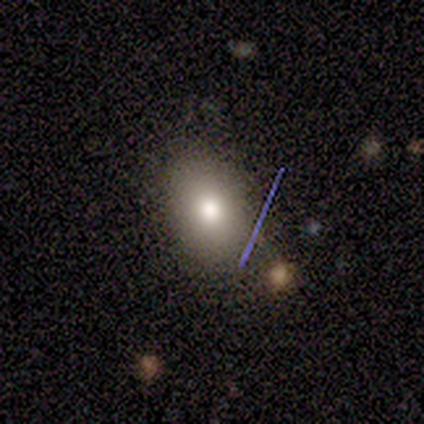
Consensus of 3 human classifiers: Overall: smooth (100%). How rounded: round (67%; in between 33%). Merging: none (100%).